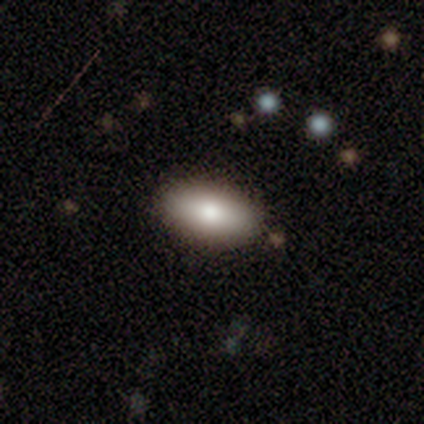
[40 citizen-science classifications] Smooth or featured? 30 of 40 (75%) said smooth. How rounded? 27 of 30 (90%) said in between. Merging? 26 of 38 (68%) said none.